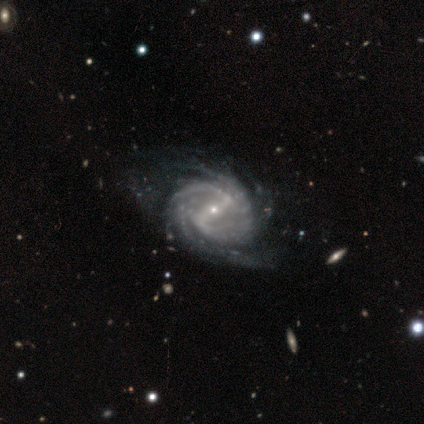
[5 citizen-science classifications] Overall: featured or disk (80%). Edge-on disk: no (100%). Bar: strong (50%, tied with weak). Spiral arms: yes (100%). Spiral arm count: 4 (50%; 2 25%). Spiral winding: tight (50%; medium 25%). Bulge size: small (75%). Merging: none (100%).